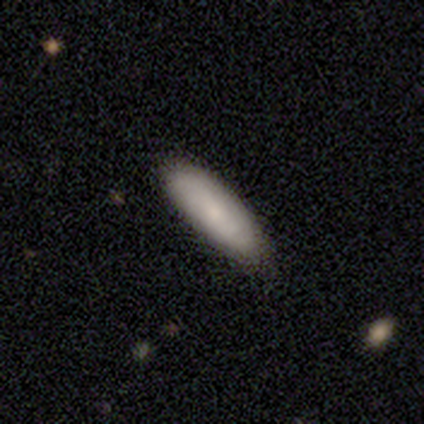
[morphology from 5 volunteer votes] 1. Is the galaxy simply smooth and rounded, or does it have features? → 100% smooth, 0% featured or disk, 0% star or artifact.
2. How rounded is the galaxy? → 60% in between, 40% cigar-shaped, 0% round.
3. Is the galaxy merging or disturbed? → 100% none, 0% minor disturbance, 0% major disturbance, 0% merger.